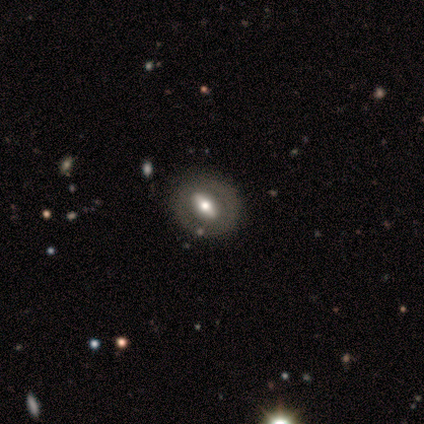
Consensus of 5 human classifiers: A featured or disk galaxy (80%) with a strong bar (33%, tied with weak and no), 2 (50%, tied with can't tell) tight (50%, tied with medium) spiral arms (67%) and a moderate central bulge (67%).

Vote fractions:
- Smooth or featured? featured or disk: 80% / smooth: 20% / star or artifact: 0%
- Edge-on disk? no: 75% / yes: 25%
- Bar? strong: 33% (tied) / weak: 33% (tied) / no: 33% (tied)
- Spiral arms? yes: 67% / no: 33%
- Spiral winding? tight: 50% (tied) / medium: 50% (tied) / loose: 0%
- Spiral arm count? 2: 50% (tied) / can't tell: 50% (tied) / 1: 0% / 3: 0% / 4: 0% / more than 4: 0%
- Bulge size? moderate: 67% / large: 33% / dominant: 0% / small: 0% / none: 0%
- Merging? none: 100% / minor disturbance: 0% / major disturbance: 0% / merger: 0%